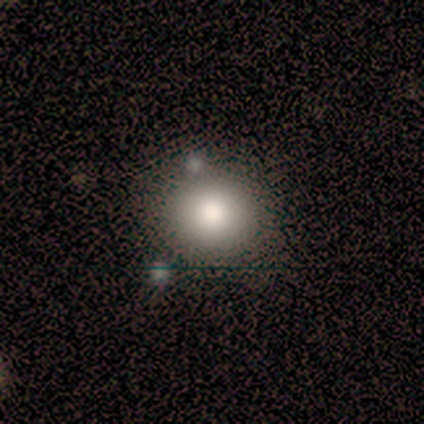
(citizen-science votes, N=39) A smooth galaxy with no disk features (82%) that is round (91%). Merging: none (71%).